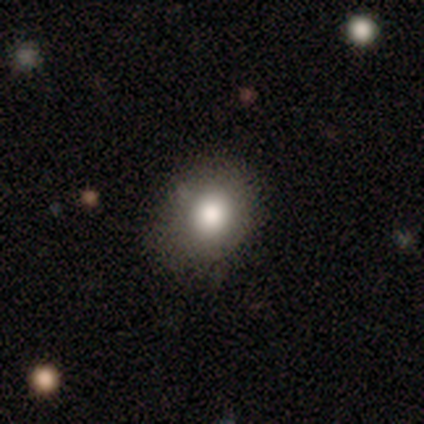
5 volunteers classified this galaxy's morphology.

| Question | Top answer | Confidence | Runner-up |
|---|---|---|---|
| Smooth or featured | smooth | 100% | — |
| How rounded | round | 60% | in between (40%) |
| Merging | none | 80% | major disturbance (20%) |